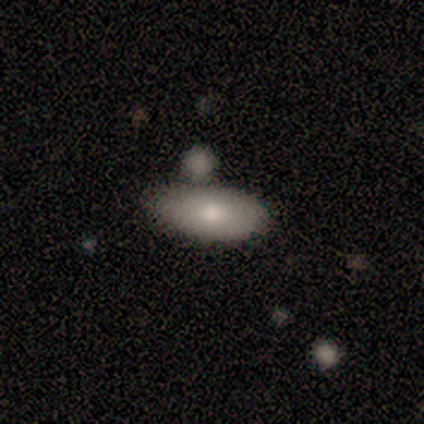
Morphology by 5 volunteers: Smooth or featured?
  - smooth: 80% *
  - featured or disk: 20%
  - star or artifact: 0%
How rounded?
  - in between: 75% *
  - cigar-shaped: 25%
  - round: 0%
Merging?
  - none: 60% *
  - minor disturbance: 20%
  - merger: 20%
  - major disturbance: 0%